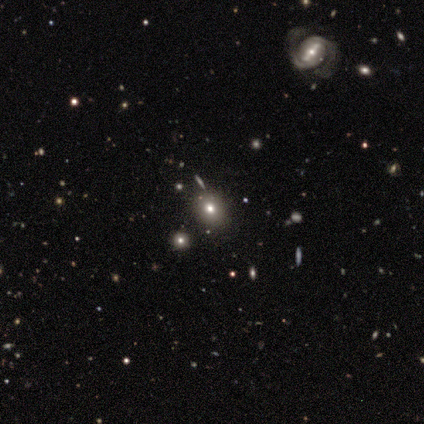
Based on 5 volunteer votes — smooth-or-featured: smooth: 60% | featured or disk: 20% | star or artifact: 20%
  how-rounded: in between: 67% | round: 33% | cigar-shaped: 0%
  merging: none: 100% | minor disturbance: 0% | major disturbance: 0% | merger: 0%